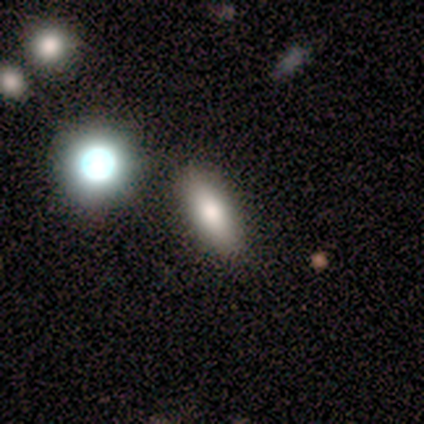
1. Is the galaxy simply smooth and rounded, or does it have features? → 100% smooth, 0% featured or disk, 0% star or artifact.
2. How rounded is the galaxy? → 60% in between, 20% round, 20% cigar-shaped.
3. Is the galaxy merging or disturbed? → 80% none, 20% minor disturbance, 0% major disturbance, 0% merger.